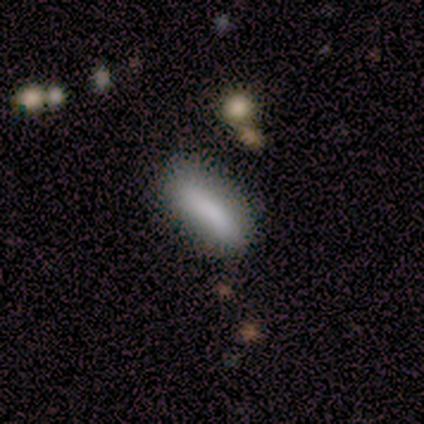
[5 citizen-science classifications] A smooth galaxy with no disk features (80%) that is cigar-shaped (75%). Merging: minor disturbance (75%).